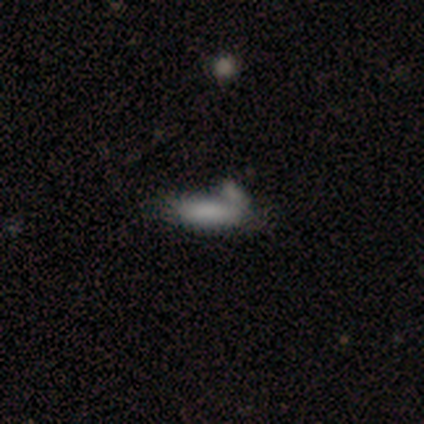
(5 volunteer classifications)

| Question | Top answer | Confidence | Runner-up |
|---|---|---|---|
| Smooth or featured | smooth | 100% | — |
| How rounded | in between | 80% | cigar-shaped (20%) |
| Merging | minor disturbance | 80% | none (20%) |